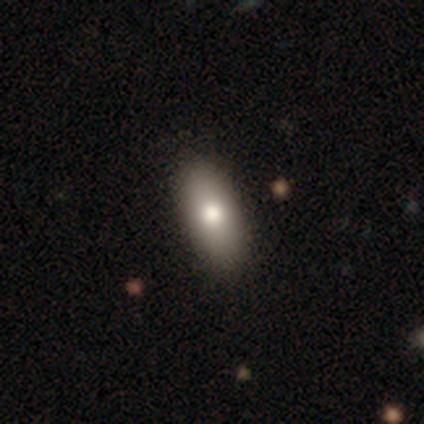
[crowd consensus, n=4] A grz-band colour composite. It shows a featured or disk galaxy (50%) with no bar (100%), no spiral arms (100%) and a moderate central bulge (100%). Merging: none (100%).